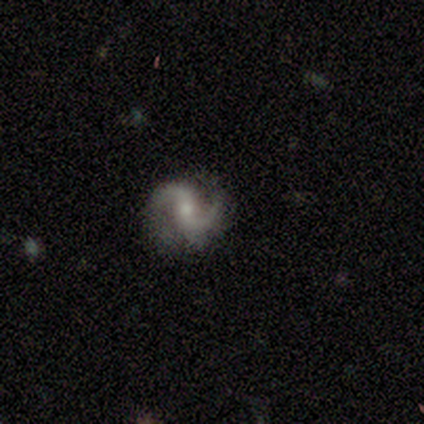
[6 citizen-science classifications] This is likely a featured or disk galaxy (67%). It is clearly not viewed edge-on (100%). Bar: possibly no (50%). Spiral arm pattern: clearly yes (100%). Spiral arm count: clearly 2 (100%). Spiral winding: likely medium (75%). Central bulge: possibly moderate (50%, tied with small). Merging: marginally none (40%, tied with minor disturbance).